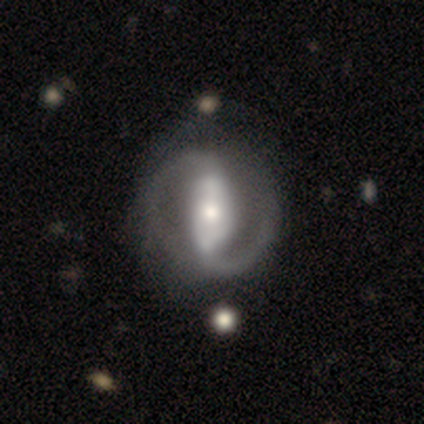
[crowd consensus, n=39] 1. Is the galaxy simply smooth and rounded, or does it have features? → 90% featured or disk, 8% smooth, 3% star or artifact.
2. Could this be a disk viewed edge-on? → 100% no, 0% yes.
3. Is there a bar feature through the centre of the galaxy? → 66% strong, 23% no, 11% weak.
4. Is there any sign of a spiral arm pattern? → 86% yes, 14% no.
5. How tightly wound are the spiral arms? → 43% medium, 30% tight, 27% loose.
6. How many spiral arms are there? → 90% 2, 7% can't tell, 3% 1, 0% 3, 0% 4, 0% more than 4.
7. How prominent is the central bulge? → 51% moderate, 23% large, 20% small, 6% dominant, 0% none.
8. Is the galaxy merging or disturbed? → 39% none, 16% major disturbance, 11% minor disturbance, 0% merger.